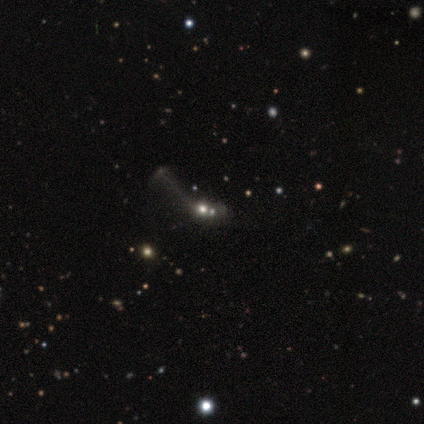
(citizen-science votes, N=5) Smooth or featured: featured or disk — 40% (tied with star or artifact — 40%)
Edge-on disk: no — 100%
Bar: no — 100%
Spiral arms: no — 100%
Bulge size: large — 100%
Merging: merger — 67% (major disturbance — 33%)